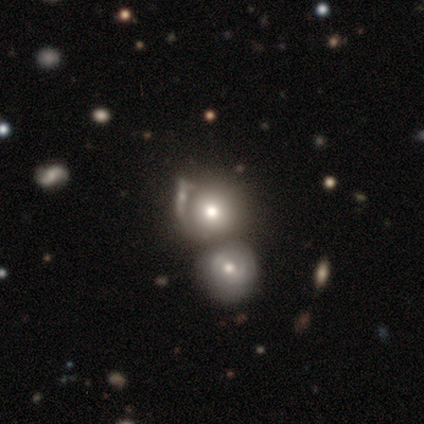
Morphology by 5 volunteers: A featured or disk galaxy (80%) with no bar (75%), no spiral arms (75%) and a moderate central bulge (100%). Merging: merger (75%).